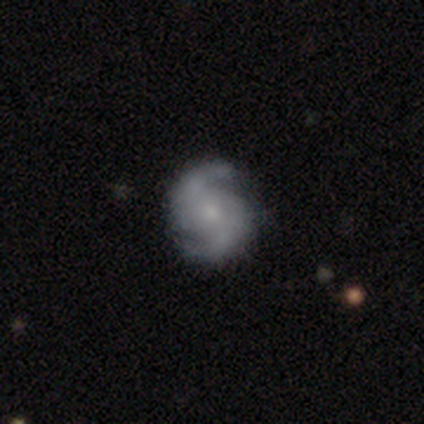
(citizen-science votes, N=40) Morphology: type=featured or disk (88%); edge-on=no (100%); bar=no (57%); spiral arms=yes (97%); winding=medium (56%); arm count=2 (91%); bulge=small (51%); merging=none (89%).